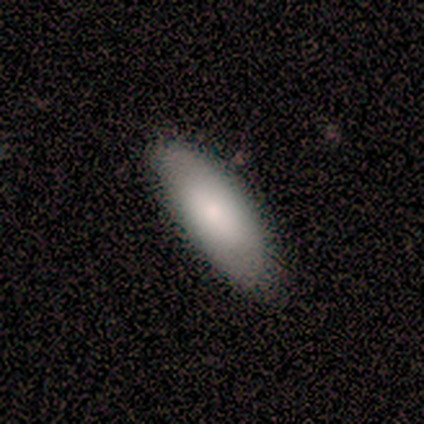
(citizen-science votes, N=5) smooth-or-featured: smooth: 80% | star or artifact: 20% | featured or disk: 0%
  how-rounded: in between: 100% | round: 0% | cigar-shaped: 0%
  merging: none: 100% | minor disturbance: 0% | major disturbance: 0% | merger: 0%